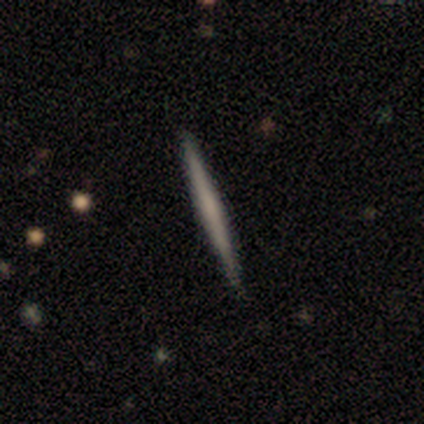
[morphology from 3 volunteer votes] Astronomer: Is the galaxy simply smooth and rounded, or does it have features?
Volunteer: smooth — 67%.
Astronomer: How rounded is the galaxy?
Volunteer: cigar-shaped — 100%.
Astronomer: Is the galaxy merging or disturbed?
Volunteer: none — 67%.